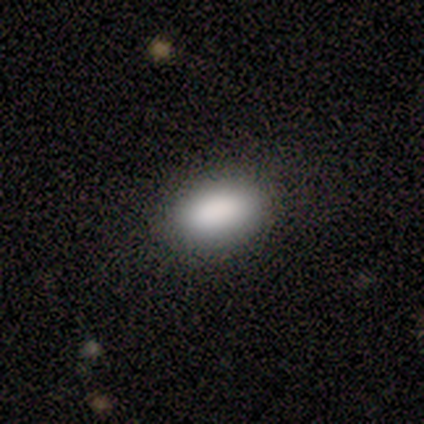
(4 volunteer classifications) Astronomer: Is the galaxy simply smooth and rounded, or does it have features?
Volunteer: smooth — 100%.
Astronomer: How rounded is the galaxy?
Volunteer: in between — 100%.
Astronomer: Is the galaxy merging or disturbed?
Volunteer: none — 100%.